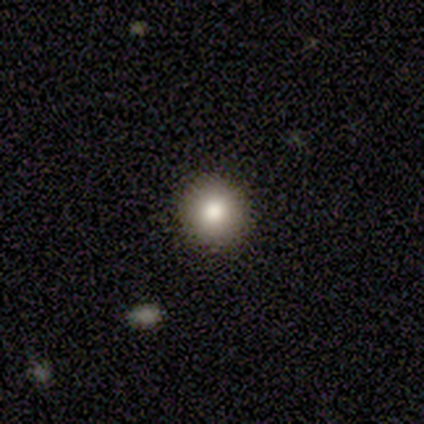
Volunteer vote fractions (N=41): smooth 80%, featured or disk 12%, star or artifact 7%. Down the decision tree: how rounded — round (100%); merging — none (92%).